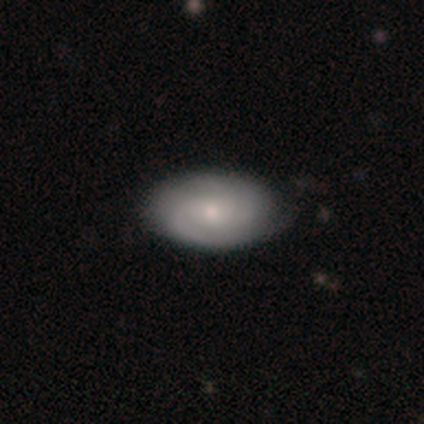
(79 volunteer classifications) smooth-or-featured: featured or disk: 63% | smooth: 33% | star or artifact: 4%
  disk-edge-on: no: 98% | yes: 2%
    bar: no: 84% | weak: 14% | strong: 2%
    has-spiral-arms: yes: 92% | no: 8%
      spiral-winding: tight: 44% (tied) | medium: 44% (tied) | loose: 11%
      spiral-arm-count: 2: 44% | can't tell: 27% | 3: 18% | 1: 9% | 4: 2% | more than 4: 0%
    bulge-size: small: 53% | moderate: 43% | large: 2% | none: 2% | dominant: 0%
  merging: none: 46% | minor disturbance: 3% | major disturbance: 3% | merger: 0%